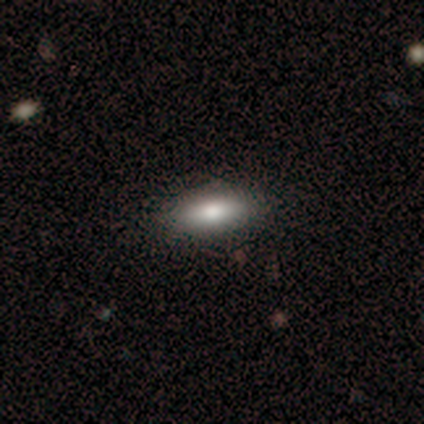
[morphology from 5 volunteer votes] Smooth or featured? 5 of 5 (100%) said smooth. How rounded? 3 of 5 (60%) said in between. Merging? 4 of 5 (80%) said none.